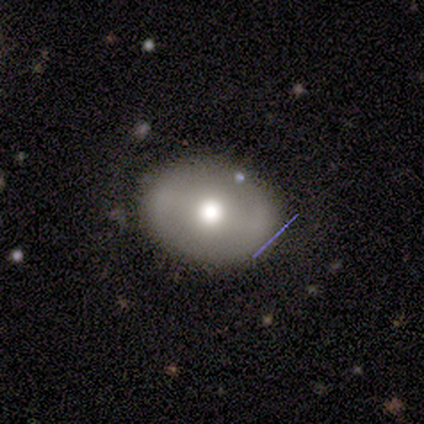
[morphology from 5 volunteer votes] smooth 60%, featured or disk 40%, star or artifact 0%. Down the decision tree: how rounded — in between (67%); merging — none (80%).